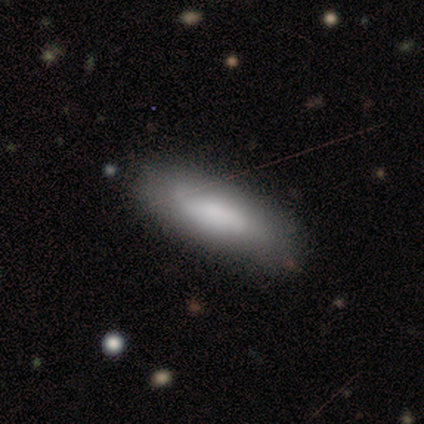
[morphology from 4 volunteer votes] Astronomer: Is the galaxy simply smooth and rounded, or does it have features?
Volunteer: smooth — 75%.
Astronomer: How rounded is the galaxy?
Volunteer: in between — 100%.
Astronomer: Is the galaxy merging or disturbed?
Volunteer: none — 75%.